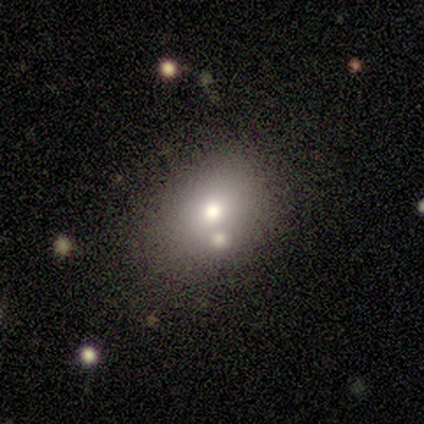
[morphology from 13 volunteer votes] smooth-or-featured: smooth: 46% (tied) | featured or disk: 46% (tied) | star or artifact: 8%
  how-rounded: in between: 83% | round: 17% | cigar-shaped: 0%
  merging: none: 50% | minor disturbance: 25% | merger: 25% | major disturbance: 0%